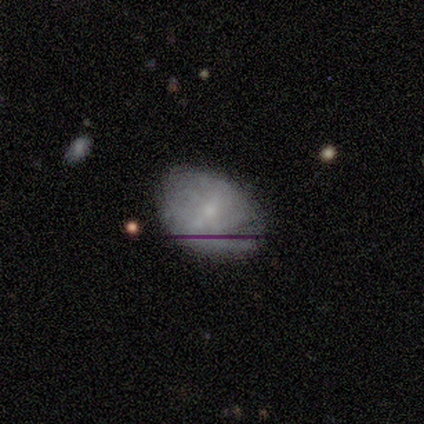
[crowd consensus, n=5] Smooth or featured? 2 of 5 (40%, tied with featured or disk) said smooth. How rounded? 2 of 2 (100%) said in between. Merging? 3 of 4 (75%) said none.